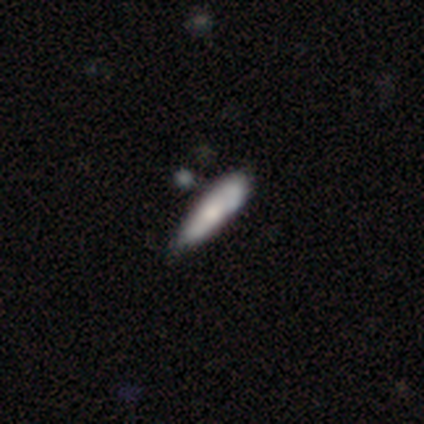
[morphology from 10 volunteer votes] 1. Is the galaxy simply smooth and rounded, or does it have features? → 70% smooth, 30% featured or disk, 0% star or artifact.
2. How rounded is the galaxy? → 86% cigar-shaped, 14% in between, 0% round.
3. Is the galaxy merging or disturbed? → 60% none, 30% minor disturbance, 10% major disturbance, 0% merger.